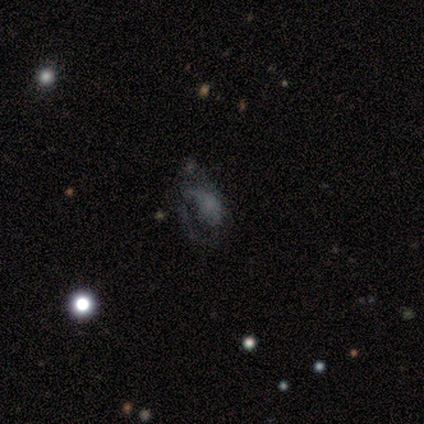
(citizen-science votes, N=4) Smooth or featured?
  - featured or disk: 75% *
  - star or artifact: 25%
  - smooth: 0%
Edge-on disk?
  - no: 100% *
  - yes: 0%
Bar?
  - no: 67% *
  - weak: 33%
  - strong: 0%
Spiral arms?
  - no: 67% *
  - yes: 33%
Bulge size?
  - none: 67% *
  - moderate: 33%
  - dominant: 0%
  - large: 0%
  - small: 0%
Merging?
  - none: 67% *
  - major disturbance: 33%
  - minor disturbance: 0%
  - merger: 0%